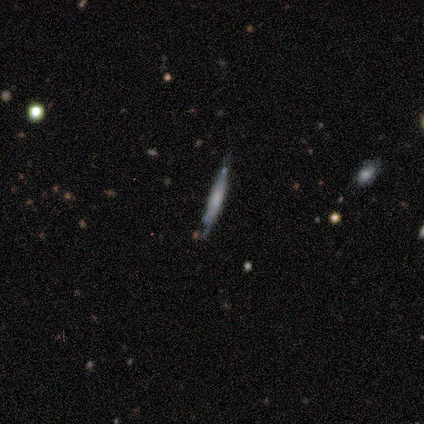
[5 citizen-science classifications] Smooth or featured: smooth — 60% (featured or disk — 40%)
How rounded: cigar-shaped — 100%
Merging: none — 100%